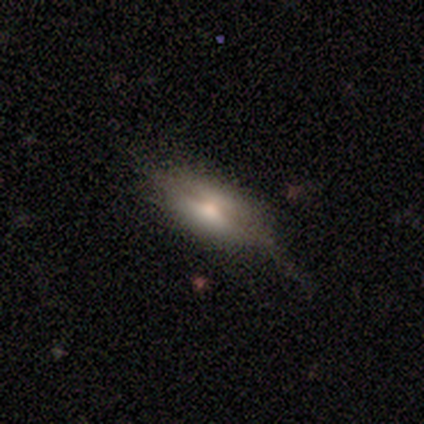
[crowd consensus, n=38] A smooth galaxy with no disk features (58%) that is in between round and cigar-shaped (77%). Merging: none (67%).